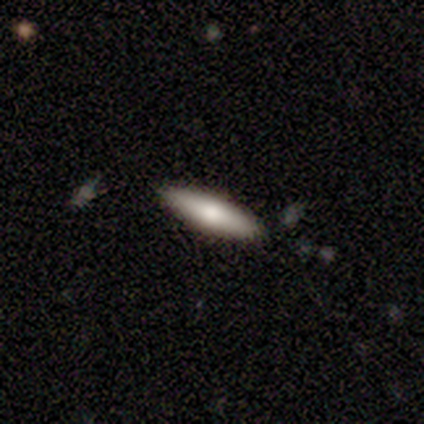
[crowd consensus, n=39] This appears to be a smooth galaxy with no disk features (79%) that is cigar-shaped (71%). Merging: none (92%).